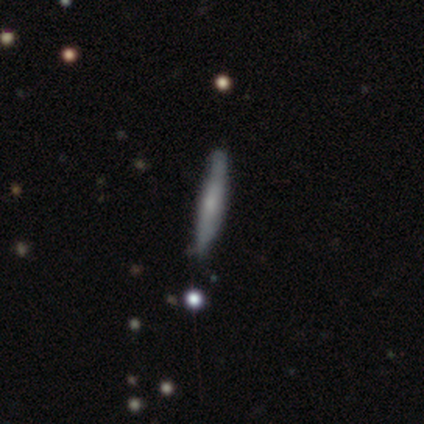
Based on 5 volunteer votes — Morphology: type=featured or disk (60%); edge-on=yes (100%); edge-on bulge=none (67%); merging=none (100%).